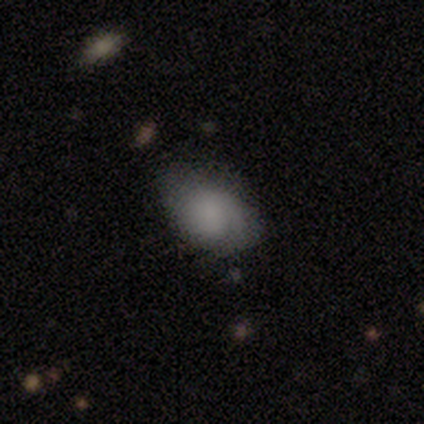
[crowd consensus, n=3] smooth 67%, featured or disk 33%, star or artifact 0%. Down the decision tree: how rounded — in between (100%); merging — none (100%).